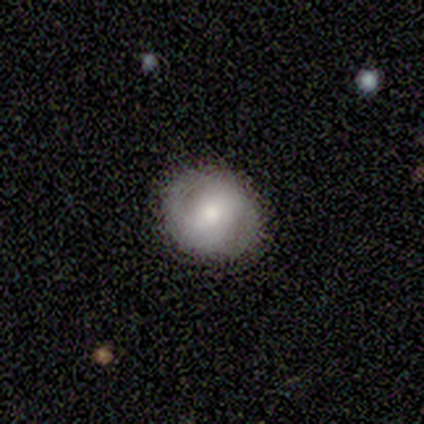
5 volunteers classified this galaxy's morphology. smooth-or-featured: smooth: 60% | featured or disk: 40% | star or artifact: 0%
  how-rounded: round: 100% | in between: 0% | cigar-shaped: 0%
  merging: none: 60% | minor disturbance: 40% | major disturbance: 0% | merger: 0%